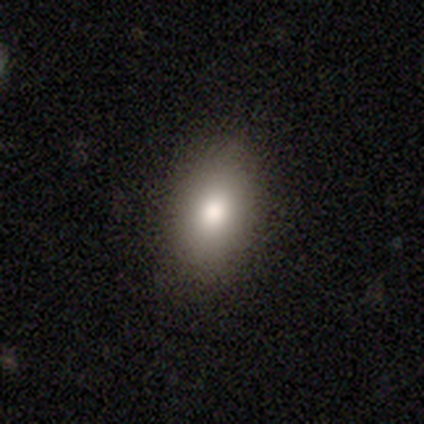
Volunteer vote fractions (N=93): Smooth or featured? smooth (76%)
How rounded? in between (87%)
Merging? none (88%)